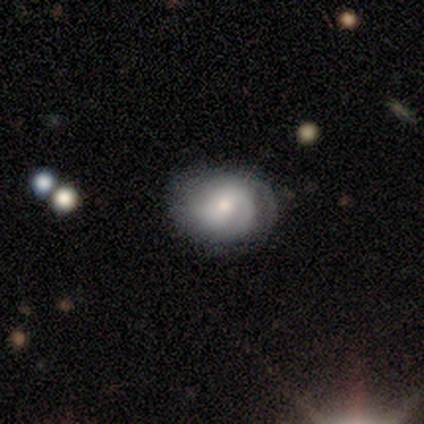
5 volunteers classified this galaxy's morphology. featured or disk 60%, smooth 40%, star or artifact 0%. Down the decision tree: edge-on disk — no (100%); bar — no (100%); spiral arms — yes (100%); spiral arm count — can't tell (67%); spiral winding — tight (33%, tied with medium and loose); bulge size — moderate (67%); merging — none (80%).